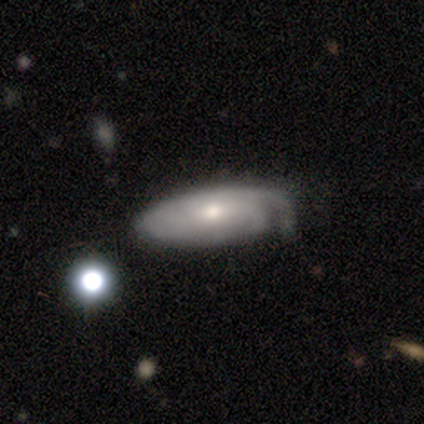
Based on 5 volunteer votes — Volunteers were most divided on "merging" (2-way tie): none: 40%, minor disturbance: 40%, major disturbance: 20%, merger: 0%. More confident: how rounded — in between (100%); smooth or featured — smooth (60%).